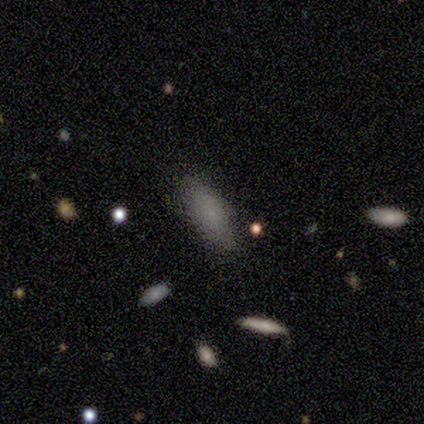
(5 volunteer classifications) smooth 100%, featured or disk 0%, star or artifact 0%. Down the decision tree: how rounded — in between (100%); merging — none (80%).